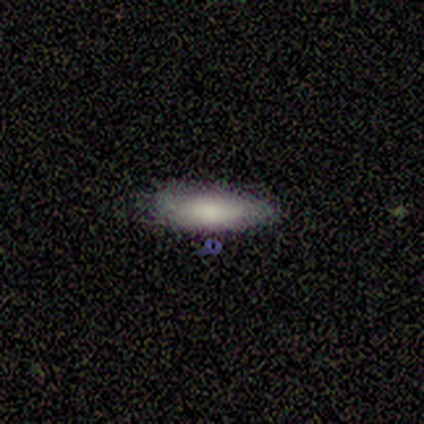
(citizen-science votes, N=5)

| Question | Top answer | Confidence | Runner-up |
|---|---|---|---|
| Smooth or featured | smooth | 100% | — |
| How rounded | in between | 100% | — |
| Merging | none | 80% | minor disturbance (20%) |